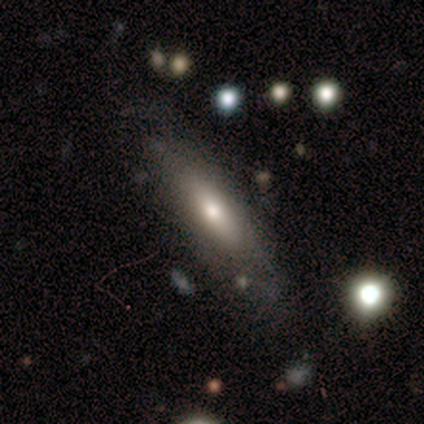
Overall: featured or disk (75%). Edge-on disk: no (67%; yes 33%). Bar: strong (50%, tied with no). Spiral arms: yes (50%, tied with no). Spiral arm count: 4 (100%). Spiral winding: tight (100%). Bulge size: moderate (100%). Merging: minor disturbance (50%; none 25%).